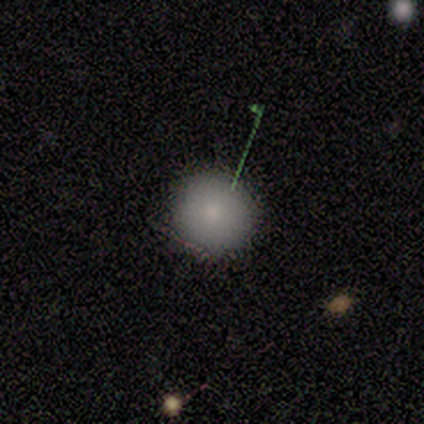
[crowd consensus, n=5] Smooth or featured: smooth — 60% (featured or disk — 40%)
How rounded: round — 100%
Merging: none — 80% (merger — 20%)